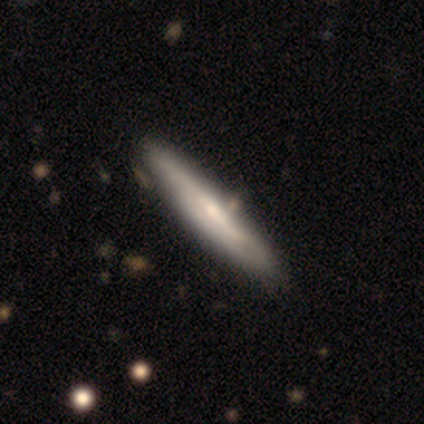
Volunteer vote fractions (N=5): smooth_or_featured: featured or disk (p=0.80) [alt: smooth p=0.20]
disk_edge_on: yes (p=1.00)
edge_on_bulge: rounded (p=0.75) [alt: none p=0.25]
merging: none (p=1.00)